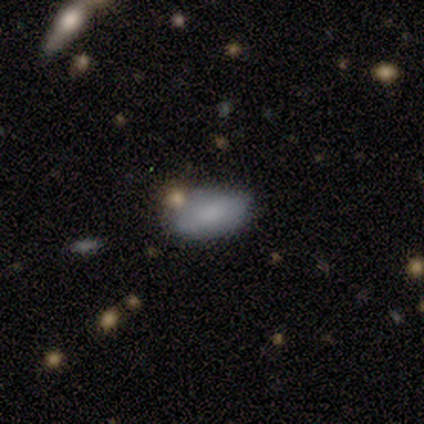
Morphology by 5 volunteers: Q: Smooth or featured?
A: star or artifact (60%); runner-up: smooth (40%)